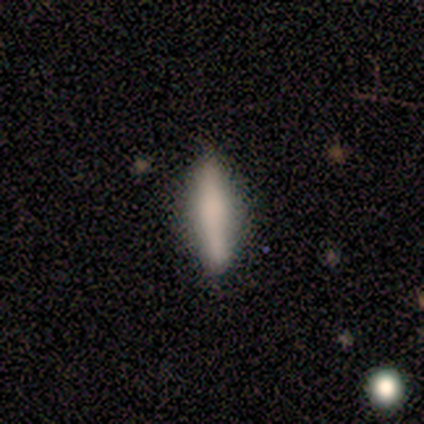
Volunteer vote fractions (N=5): smooth 80%, featured or disk 20%, star or artifact 0%. Down the decision tree: how rounded — cigar-shaped (100%); merging — none (60%).